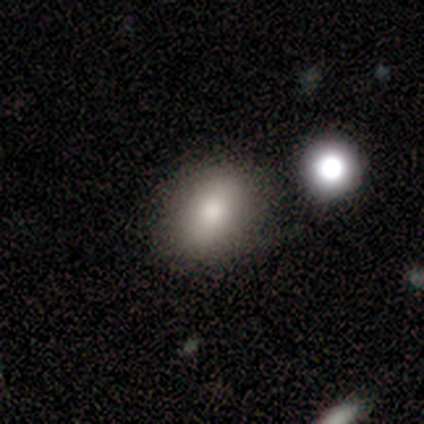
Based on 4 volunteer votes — Q: Smooth or featured?
A: smooth (75%); runner-up: star or artifact (25%)
Q: How rounded?
A: in between (67%); runner-up: round (33%)
Q: Merging?
A: none (67%); runner-up: merger (33%)